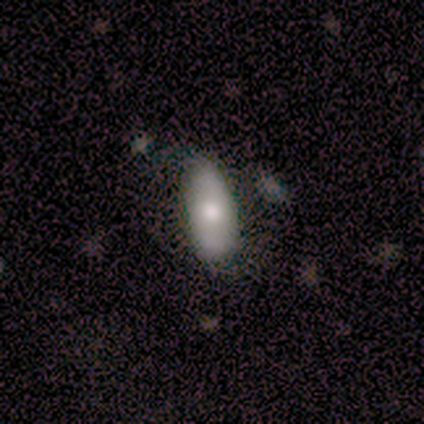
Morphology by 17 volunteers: Overall: smooth (59%; featured or disk 41%). How rounded: in between (80%). Merging: none (59%; minor disturbance 35%).